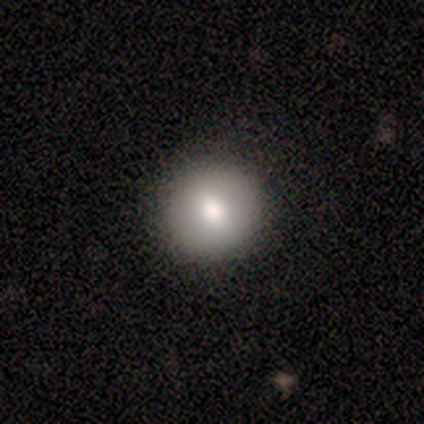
Smooth or featured? smooth (75%)
How rounded? round (67%)
Merging? none (100%)